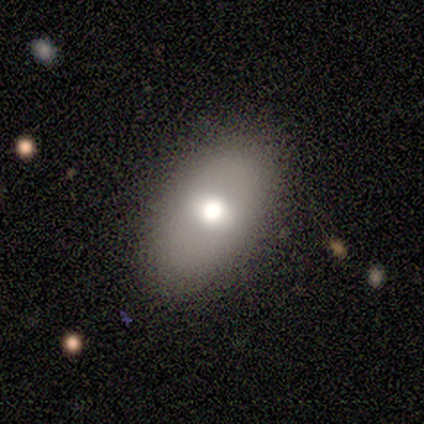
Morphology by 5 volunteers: type=smooth (60%); roundness=in between (100%); merging=none (100%).